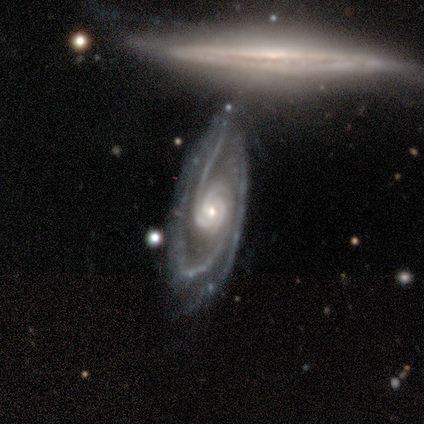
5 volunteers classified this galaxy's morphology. smooth_or_featured: featured or disk (p=1.00)
disk_edge_on: no (p=1.00)
bar: no (p=0.80) [alt: weak p=0.20]
has_spiral_arms: yes (p=1.00)
spiral_winding: medium (p=0.80) [alt: tight p=0.20]
spiral_arm_count: 2 (p=0.60) [alt: 3 p=0.40]
bulge_size: small (p=0.80) [alt: moderate p=0.20]
merging: none (p=0.60) [alt: minor disturbance p=0.40]